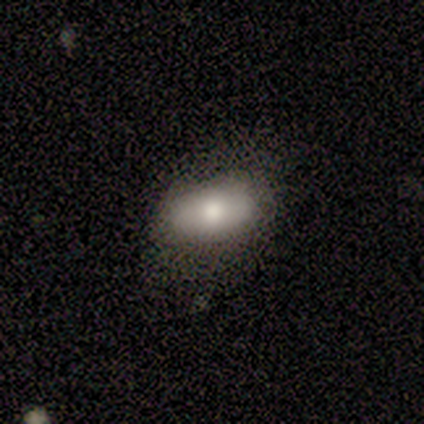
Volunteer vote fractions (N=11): Q: Smooth or featured?
A: smooth (91%); runner-up: featured or disk (9%)
Q: How rounded?
A: in between (100%)
Q: Merging?
A: none (91%); runner-up: minor disturbance (9%)